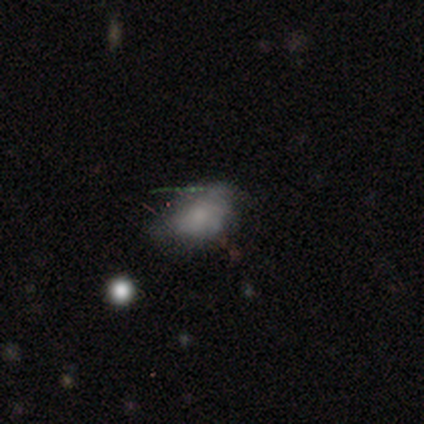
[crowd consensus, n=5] Q: Smooth or featured?
A: smooth (60%); runner-up: featured or disk (20%)
Q: How rounded?
A: in between (100%)
Q: Merging?
A: minor disturbance (75%); runner-up: major disturbance (25%)